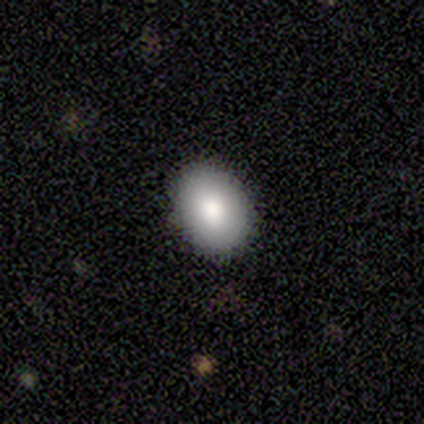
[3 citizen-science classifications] smooth-or-featured: smooth: 100% | featured or disk: 0% | star or artifact: 0%
  how-rounded: in between: 67% | round: 33% | cigar-shaped: 0%
  merging: none: 100% | minor disturbance: 0% | major disturbance: 0% | merger: 0%